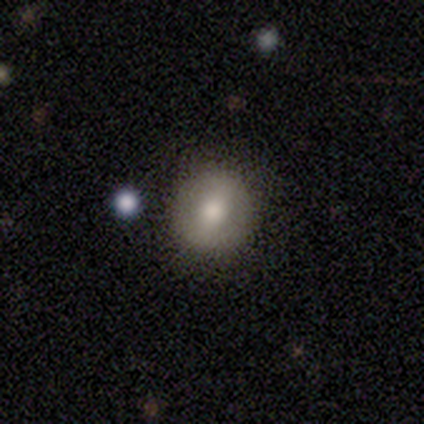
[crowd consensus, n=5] Consensus on every question: smooth or featured — smooth (100%); how rounded — round (100%); merging — none (100%).